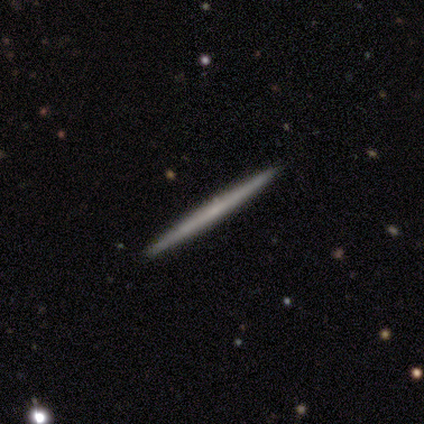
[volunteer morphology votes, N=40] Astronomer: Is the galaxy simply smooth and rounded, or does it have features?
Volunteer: featured or disk — 57% (runner-up: smooth, 42%).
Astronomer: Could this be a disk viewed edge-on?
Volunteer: yes — 96%.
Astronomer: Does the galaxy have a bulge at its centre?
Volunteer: none — 95%.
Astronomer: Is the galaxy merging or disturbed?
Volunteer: none — 95%.